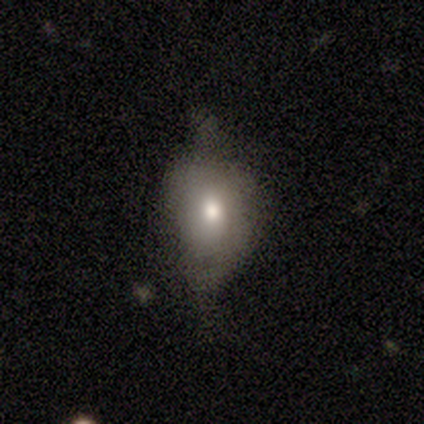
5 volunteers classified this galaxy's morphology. smooth_or_featured: smooth (p=0.80) [alt: star or artifact p=0.20]
how_rounded: round (p=0.50) [tied with: in between p=0.50]
merging: none (p=0.75) [alt: major disturbance p=0.25]